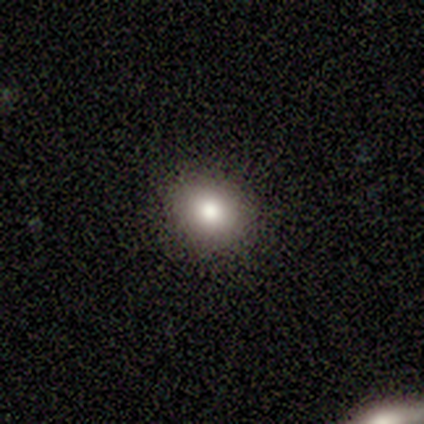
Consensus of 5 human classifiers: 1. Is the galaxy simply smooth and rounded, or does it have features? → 60% smooth, 20% featured or disk, 20% star or artifact.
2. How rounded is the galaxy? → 100% round, 0% in between, 0% cigar-shaped.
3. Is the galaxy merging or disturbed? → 100% none, 0% minor disturbance, 0% major disturbance, 0% merger.